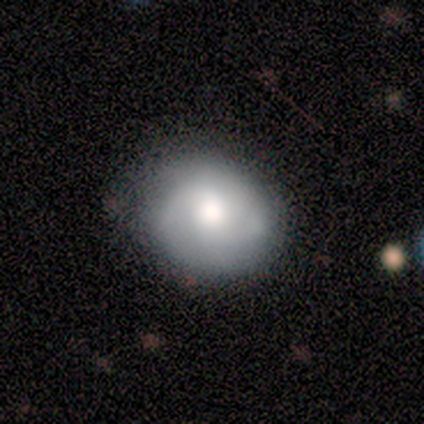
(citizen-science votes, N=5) smooth-or-featured: smooth: 80% | featured or disk: 20% | star or artifact: 0%
  how-rounded: round: 100% | in between: 0% | cigar-shaped: 0%
  merging: none: 100% | minor disturbance: 0% | major disturbance: 0% | merger: 0%